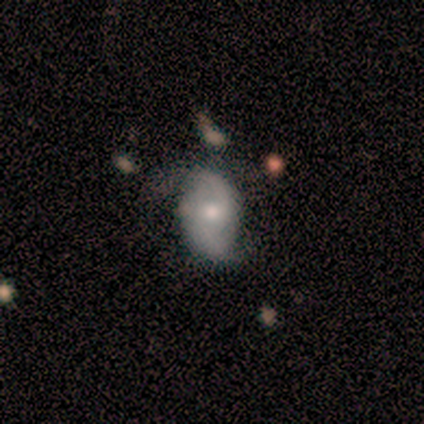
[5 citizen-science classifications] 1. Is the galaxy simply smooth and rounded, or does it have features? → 40% smooth (tied), 40% star or artifact (tied), 20% featured or disk.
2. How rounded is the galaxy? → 100% in between, 0% round, 0% cigar-shaped.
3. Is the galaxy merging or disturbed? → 67% none, 33% major disturbance, 0% minor disturbance, 0% merger.